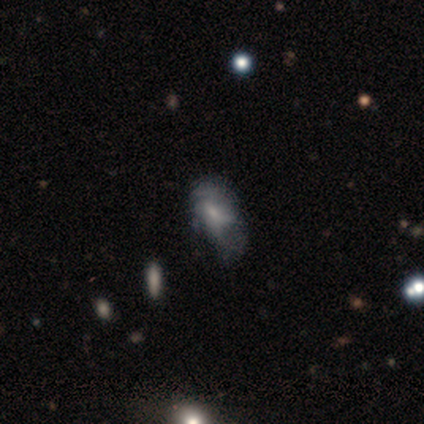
Smooth or featured? smooth (71%)
How rounded? in between (80%)
Merging? minor disturbance (57%)